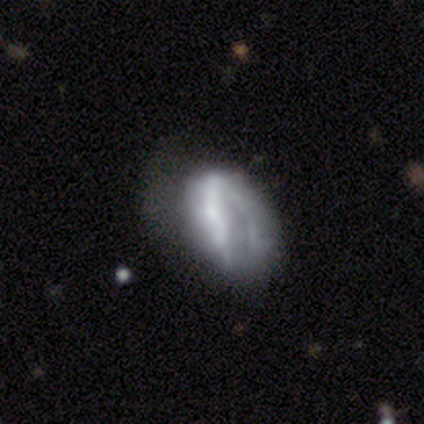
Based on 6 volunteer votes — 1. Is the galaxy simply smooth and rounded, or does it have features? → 83% featured or disk, 17% smooth, 0% star or artifact.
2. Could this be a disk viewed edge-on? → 80% no, 20% yes.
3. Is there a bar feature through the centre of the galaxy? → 50% strong, 25% weak, 25% no.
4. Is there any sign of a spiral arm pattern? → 75% no, 25% yes.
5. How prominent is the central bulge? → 50% none, 25% dominant, 25% small, 0% large, 0% moderate.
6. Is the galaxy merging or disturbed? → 67% major disturbance, 33% none, 0% minor disturbance, 0% merger.